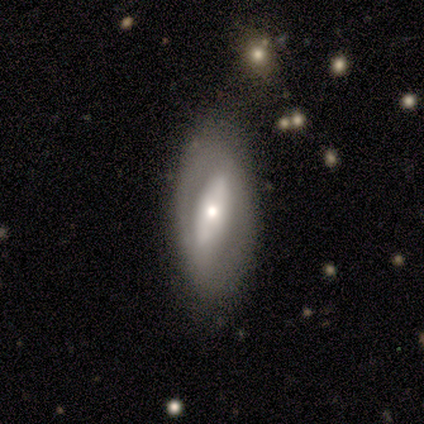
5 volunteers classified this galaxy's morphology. featured or disk 60%, smooth 40%, star or artifact 0%. Down the decision tree: edge-on disk — no (100%); bar — no (67%); spiral arms — no (100%); bulge size — moderate (67%); merging — none (60%).